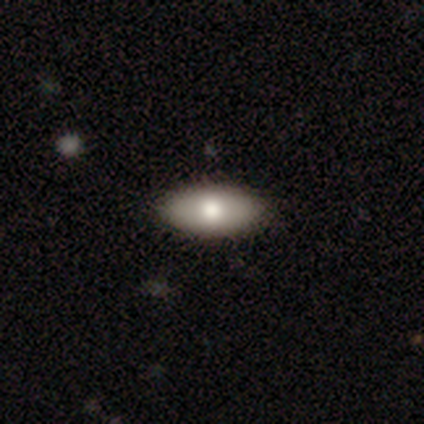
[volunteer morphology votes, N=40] Smooth or featured? 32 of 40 (80%) said smooth. How rounded? 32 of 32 (100%) said in between. Merging? 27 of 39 (69%) said none.